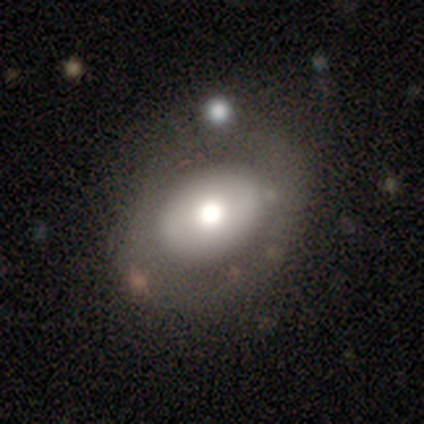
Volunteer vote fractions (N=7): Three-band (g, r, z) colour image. It shows a smooth galaxy with no disk features (71%) that is in between round and cigar-shaped (60%). Merging: none (100%).